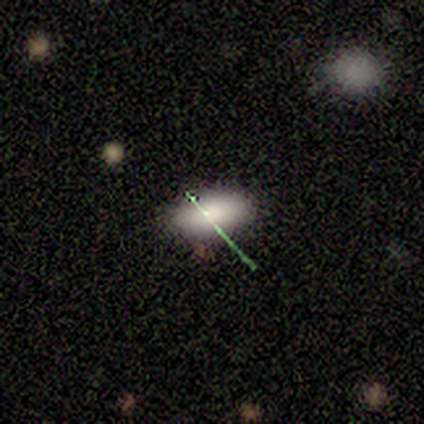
A smooth galaxy with no disk features (80%) that is in between round and cigar-shaped (100%).

Vote fractions:
- Smooth or featured? smooth: 80% / star or artifact: 20% / featured or disk: 0%
- How rounded? in between: 100% / round: 0% / cigar-shaped: 0%
- Merging? none: 50% (tied) / minor disturbance: 50% (tied) / major disturbance: 0% / merger: 0%